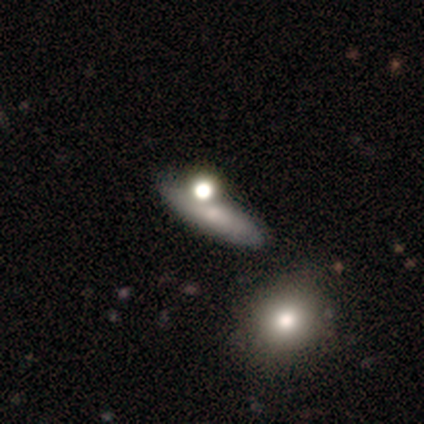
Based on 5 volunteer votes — This is clearly a smooth galaxy (80%). How rounded: possibly cigar-shaped (50%). Merging: clearly none (100%).